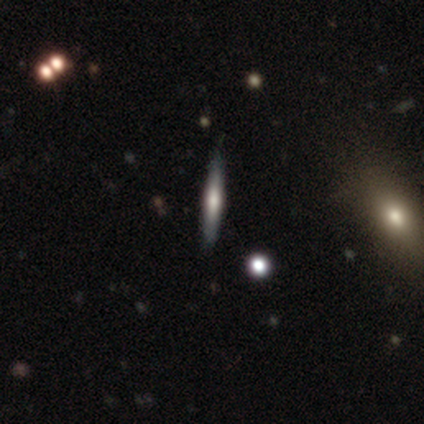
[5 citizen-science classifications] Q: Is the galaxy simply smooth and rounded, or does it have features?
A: featured or disk — 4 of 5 (80%).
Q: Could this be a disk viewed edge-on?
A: yes — 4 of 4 (100%).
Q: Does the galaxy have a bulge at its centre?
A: rounded — 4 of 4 (100%).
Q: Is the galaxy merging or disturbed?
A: none — 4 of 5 (80%).